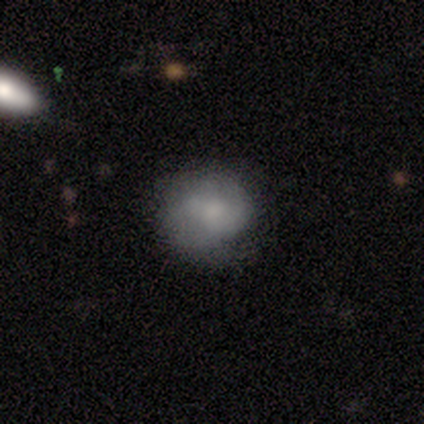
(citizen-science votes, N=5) smooth 80%, featured or disk 20%, star or artifact 0%. Down the decision tree: how rounded — round (100%); merging — none (80%).